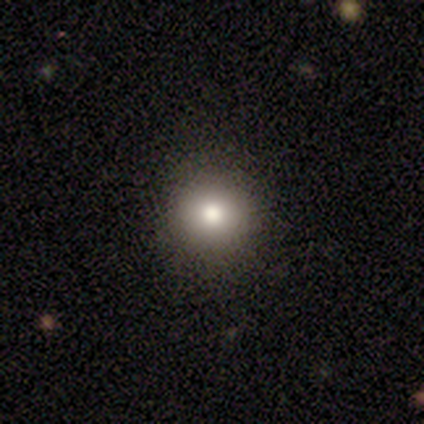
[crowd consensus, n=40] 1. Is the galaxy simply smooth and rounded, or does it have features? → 70% smooth, 18% star or artifact, 12% featured or disk.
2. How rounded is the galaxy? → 86% round, 14% in between, 0% cigar-shaped.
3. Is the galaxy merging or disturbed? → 94% none, 6% minor disturbance, 0% major disturbance, 0% merger.